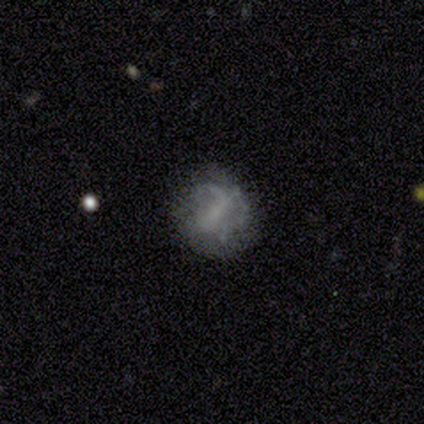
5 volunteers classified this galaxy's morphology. smooth_or_featured: smooth (p=0.40) [tied with: featured or disk p=0.40]
how_rounded: round (p=1.00)
merging: none (p=1.00)